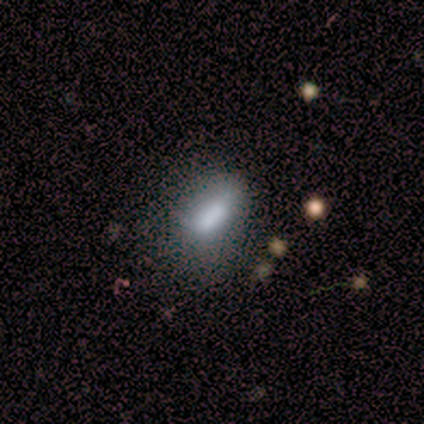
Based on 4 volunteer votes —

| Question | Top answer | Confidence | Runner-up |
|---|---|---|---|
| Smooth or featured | smooth | 75% | star or artifact (25%) |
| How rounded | in between | 100% | — |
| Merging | minor disturbance | 67% | none (33%) |